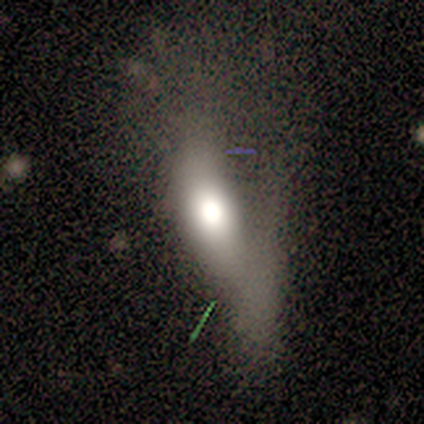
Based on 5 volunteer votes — smooth_or_featured: featured or disk (p=0.60) [alt: smooth p=0.40]
disk_edge_on: no (p=0.67) [alt: yes p=0.33]
bar: no (p=1.00)
has_spiral_arms: no (p=1.00)
bulge_size: large (p=1.00)
merging: major disturbance (p=0.60) [alt: none p=0.20]